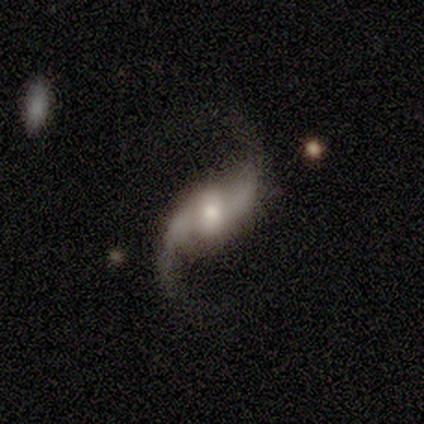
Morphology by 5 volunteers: Smooth or featured?
  - featured or disk: 100% *
  - smooth: 0%
  - star or artifact: 0%
Edge-on disk?
  - no: 80% *
  - yes: 20%
Bar?
  - strong: 50% *
  - weak: 25%
  - no: 25%
Spiral arms?
  - yes: 100% *
  - no: 0%
Spiral winding?
  - loose: 100% *
  - tight: 0%
  - medium: 0%
Spiral arm count?
  - 2: 100% *
  - 1: 0%
  - 3: 0%
  - 4: 0%
  - more than 4: 0%
  - can't tell: 0%
Bulge size?
  - moderate: 50% * (tied)
  - small: 50% * (tied)
  - dominant: 0%
  - large: 0%
  - none: 0%
Merging?
  - none: 80% *
  - major disturbance: 20%
  - minor disturbance: 0%
  - merger: 0%